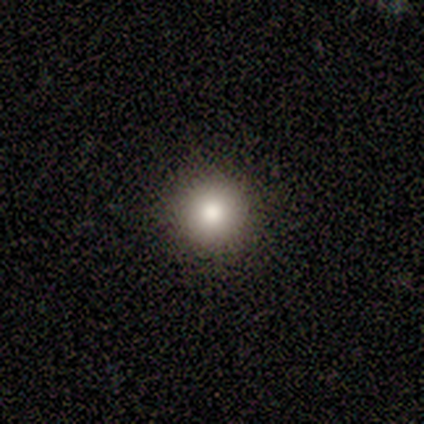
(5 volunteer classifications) Smooth or featured? smooth (100%)
How rounded? round (100%)
Merging? none (100%)